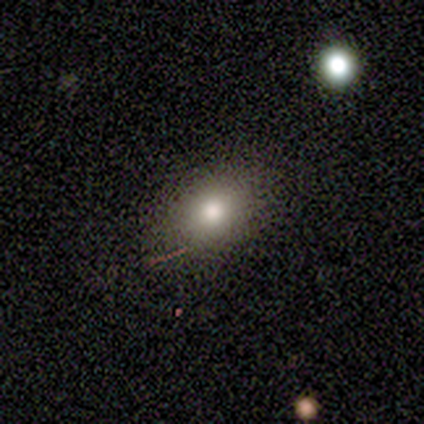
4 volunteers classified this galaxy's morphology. This appears to be a smooth galaxy with no disk features (75%) that is in between round and cigar-shaped (100%). Merging: none (75%).